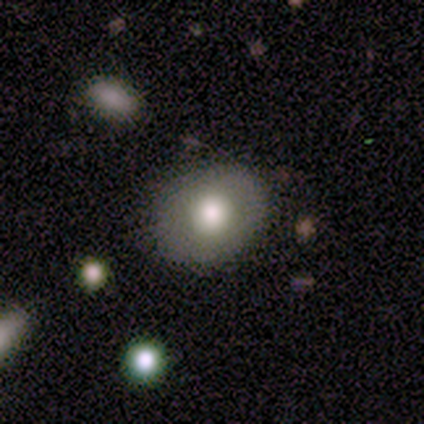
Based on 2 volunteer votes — Consensus on every question: smooth or featured — smooth (100%); how rounded — in between (100%); merging — none (100%).